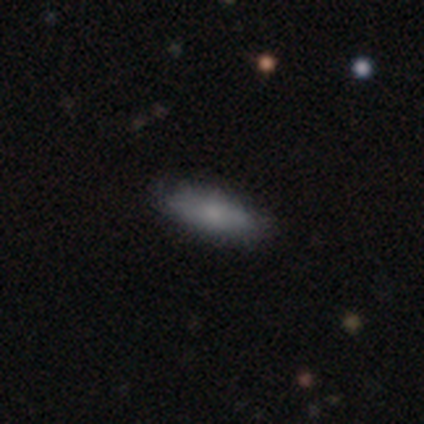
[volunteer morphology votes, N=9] Q: Smooth or featured?
A: smooth (56%); runner-up: featured or disk (33%)
Q: How rounded?
A: cigar-shaped (80%); runner-up: in between (20%)
Q: Merging?
A: none (100%)